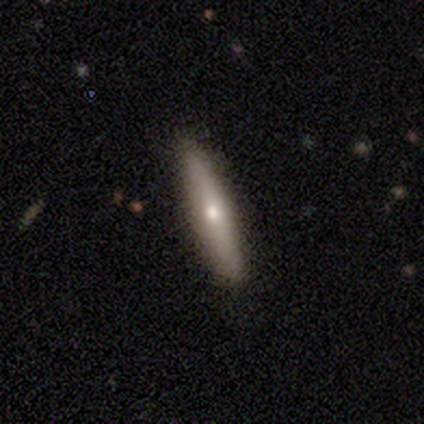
A smooth galaxy with no disk features (67%) that is cigar-shaped (75%).

Vote fractions:
- Smooth or featured? smooth: 67% / featured or disk: 33% / star or artifact: 0%
- How rounded? cigar-shaped: 75% / in between: 25% / round: 0%
- Merging? none: 83% / minor disturbance: 17% / major disturbance: 0% / merger: 0%